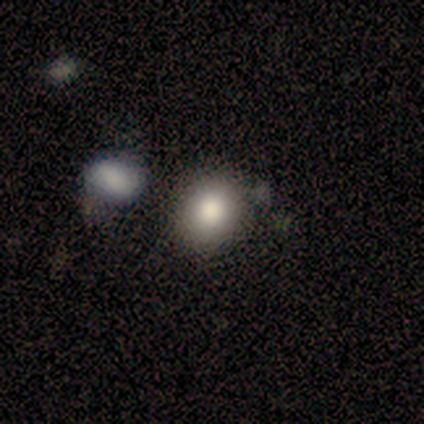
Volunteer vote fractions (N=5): A star or artifact, not a galaxy (60%).

Vote fractions:
- Smooth or featured? star or artifact: 60% / smooth: 40% / featured or disk: 0%